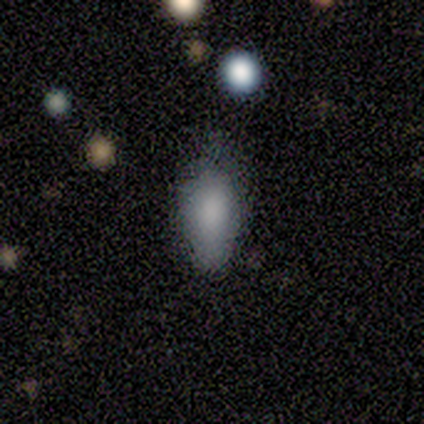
Q: Smooth or featured?
A: smooth (82%); runner-up: featured or disk (16%)
Q: How rounded?
A: in between (71%); runner-up: cigar-shaped (29%)
Q: Merging?
A: none (49%); runner-up: minor disturbance (43%)